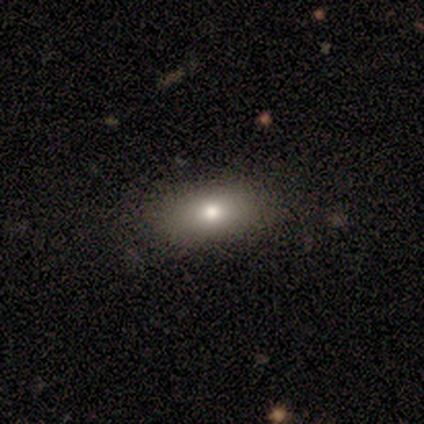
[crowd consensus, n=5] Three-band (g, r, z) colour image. It shows a smooth galaxy with no disk features (80%) that is in between round and cigar-shaped (100%). Merging: none (100%).